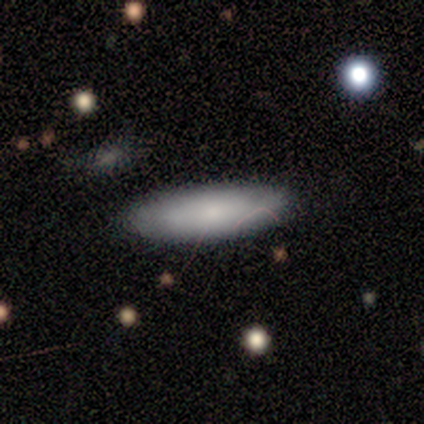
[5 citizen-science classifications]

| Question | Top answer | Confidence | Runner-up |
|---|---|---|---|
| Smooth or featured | smooth | 100% | — |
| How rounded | in between | 60% | cigar-shaped (40%) |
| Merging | none | 100% | — |